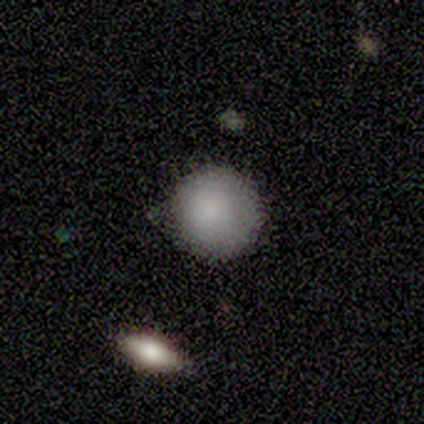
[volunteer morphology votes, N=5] Overall: smooth (100%). How rounded: round (100%). Merging: none (80%).